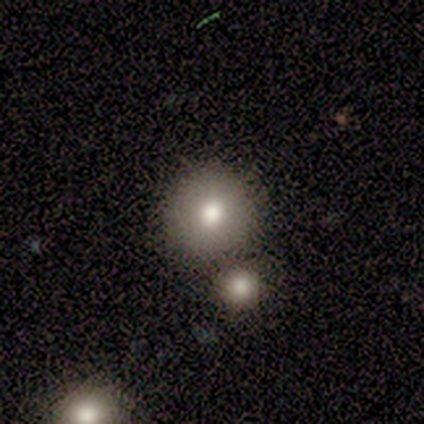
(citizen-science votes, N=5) A smooth galaxy with no disk features (100%) that is round (80%). Merging: none (60%).